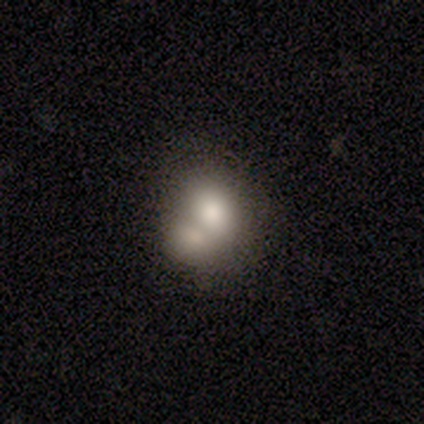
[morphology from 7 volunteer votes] Volunteers were most divided on "how rounded": round: 60%, in between: 40%, cigar-shaped: 0%. More confident: smooth or featured — smooth (71%); merging — merger (67%).